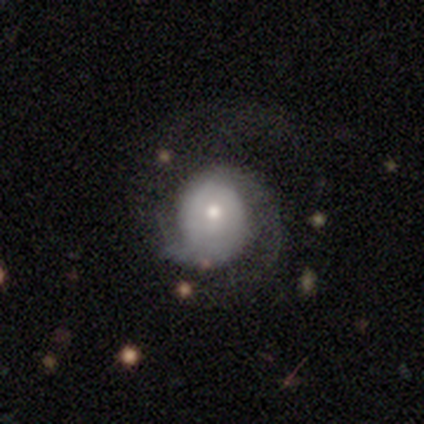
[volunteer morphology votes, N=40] Smooth or featured: featured or disk — 75% (smooth — 25%)
Edge-on disk: no — 97% (yes — 3%)
Bar: no — 86% (strong — 7%)
Spiral arms: yes — 86% (no — 14%)
Spiral winding: tight — 44% (medium — 28%)
Spiral arm count: 2 — 64% (can't tell — 16%)
Bulge size: small — 55% (moderate — 41%)
Merging: none — 48% (major disturbance — 32%)